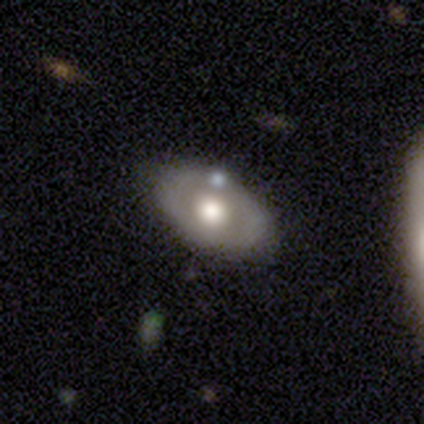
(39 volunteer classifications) Q: Smooth or featured?
A: featured or disk (62%); runner-up: smooth (33%)
Q: Edge-on disk?
A: no (79%); runner-up: yes (21%)
Q: Bar?
A: no (89%); runner-up: weak (11%)
Q: Spiral arms?
A: no (84%); runner-up: yes (16%)
Q: Bulge size?
A: moderate (63%); runner-up: large (21%)
Q: Merging?
A: none (62%); runner-up: merger (19%)